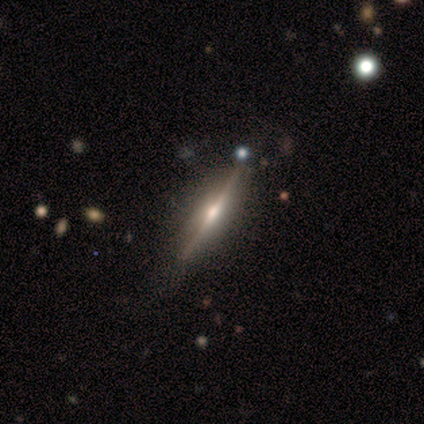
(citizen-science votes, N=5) Smooth or featured?
  - featured or disk: 100% *
  - smooth: 0%
  - star or artifact: 0%
Edge-on disk?
  - yes: 100% *
  - no: 0%
Edge-on bulge?
  - rounded: 80% *
  - boxy: 20%
  - none: 0%
Merging?
  - none: 100% *
  - minor disturbance: 0%
  - major disturbance: 0%
  - merger: 0%